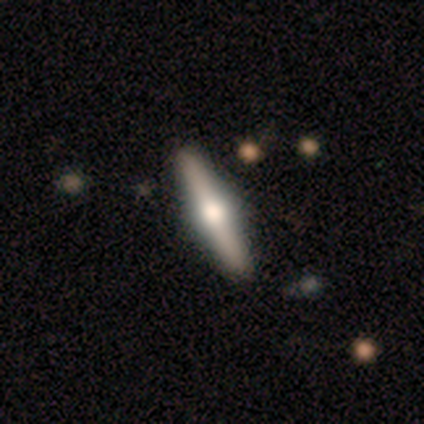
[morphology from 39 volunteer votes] Smooth or featured: featured or disk — 77% (smooth — 15%)
Edge-on disk: yes — 93% (no — 7%)
Edge-on bulge: rounded — 100%
Merging: none — 94% (minor disturbance — 3%)